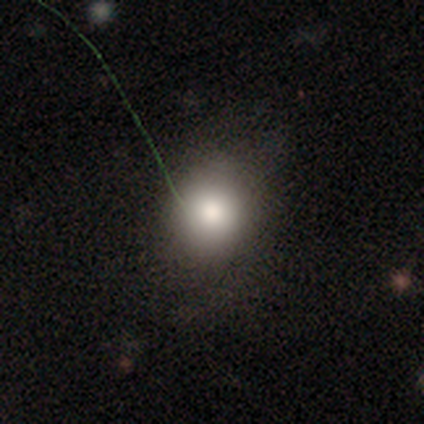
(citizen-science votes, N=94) smooth 72%, star or artifact 21%, featured or disk 6%. Down the decision tree: how rounded — round (66%); merging — none (78%).